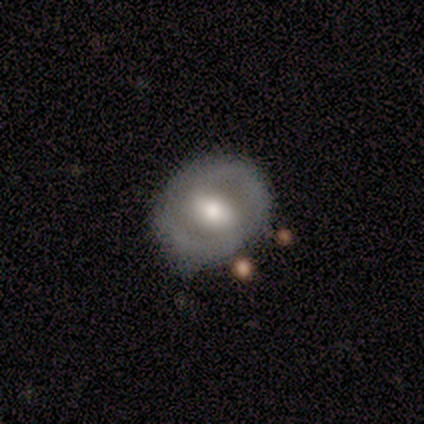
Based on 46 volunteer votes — A featured or disk galaxy (59%) with a weak bar (41%), no spiral arms (56%) and a moderate central bulge (59%). Merging: none (73%).